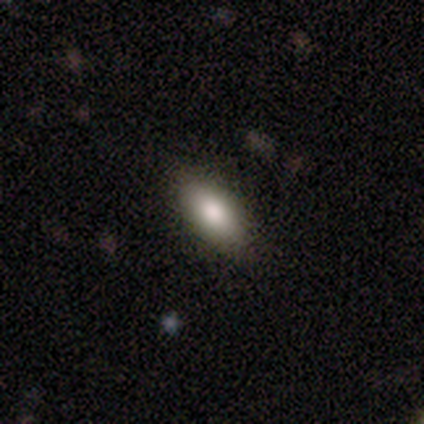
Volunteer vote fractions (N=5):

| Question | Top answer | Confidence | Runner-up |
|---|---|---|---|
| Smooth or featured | smooth | 80% | featured or disk (20%) |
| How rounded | in between | 100% | — |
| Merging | none | 100% | — |